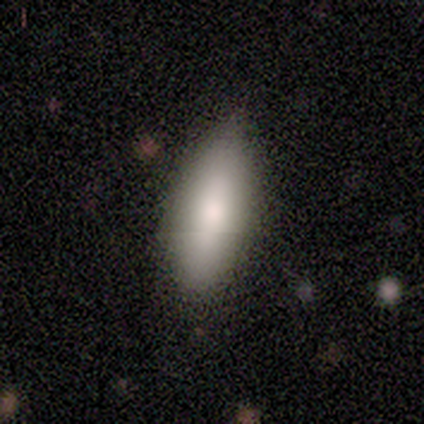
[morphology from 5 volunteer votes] Smooth or featured: smooth — 100%
How rounded: in between — 100%
Merging: none — 60% (minor disturbance — 40%)